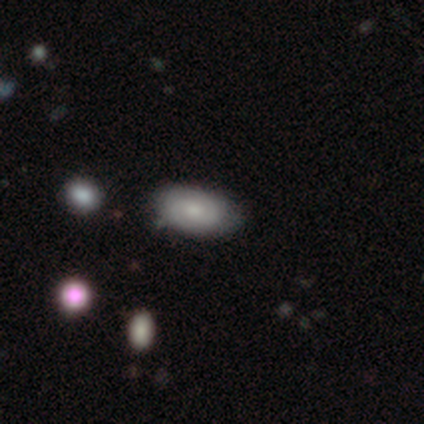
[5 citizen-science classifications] smooth_or_featured: smooth (p=0.60) [alt: featured or disk p=0.40]
how_rounded: in between (p=1.00)
merging: none (p=0.60) [alt: minor disturbance p=0.40]